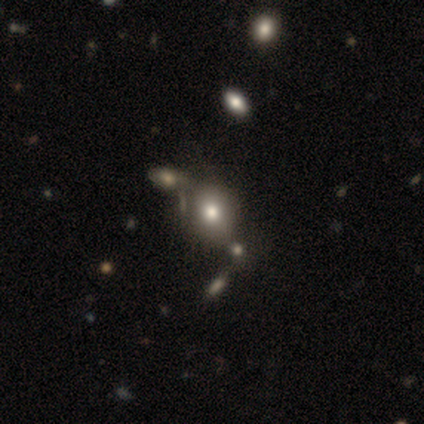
Morphology: type=smooth (82%); roundness=round (59%); merging=merger (36%).